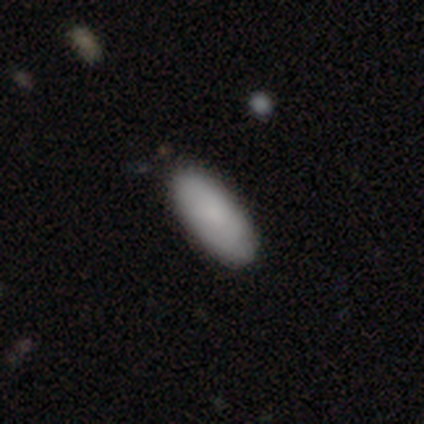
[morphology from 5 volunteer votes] This appears to be a smooth galaxy with no disk features (40%, tied with featured or disk) that is in between round and cigar-shaped (100%). Merging: none (75%).